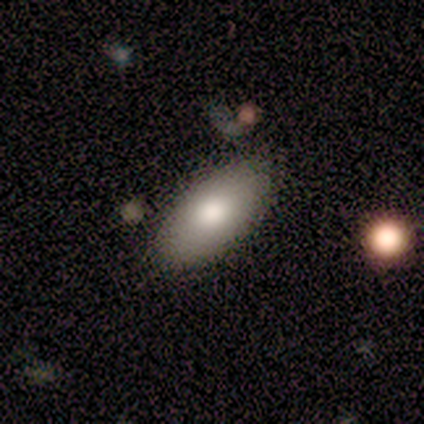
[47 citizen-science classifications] smooth 72%, featured or disk 23%, star or artifact 4%. Down the decision tree: how rounded — in between (91%); merging — none (89%).